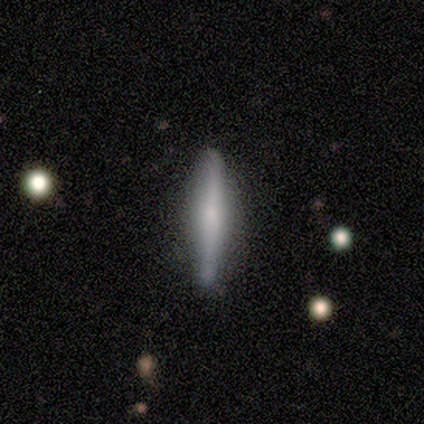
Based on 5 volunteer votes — smooth-or-featured: featured or disk: 60% | smooth: 40% | star or artifact: 0%
  disk-edge-on: yes: 67% | no: 33%
    edge-on-bulge: boxy: 50% (tied) | rounded: 50% (tied) | none: 0%
  merging: none: 100% | minor disturbance: 0% | major disturbance: 0% | merger: 0%